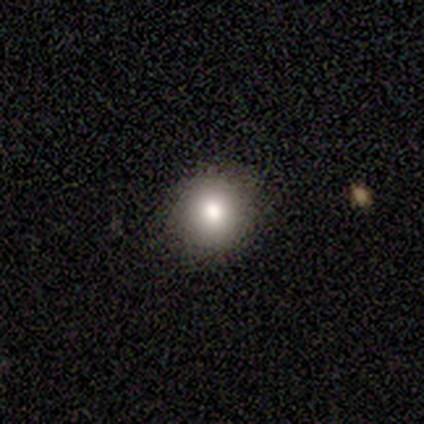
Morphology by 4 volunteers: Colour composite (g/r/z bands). It shows a smooth galaxy with no disk features (100%) that is round (100%). Merging: none (100%).